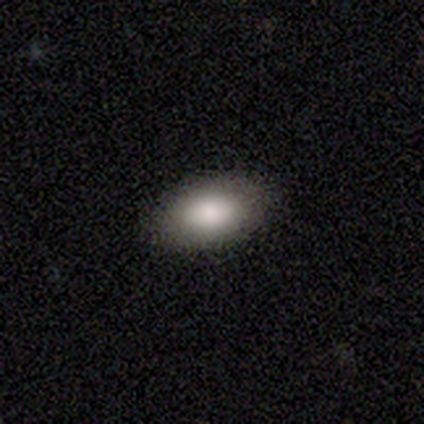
This appears to be a smooth galaxy with no disk features (80%) that is in between round and cigar-shaped (100%). Merging: none (100%).